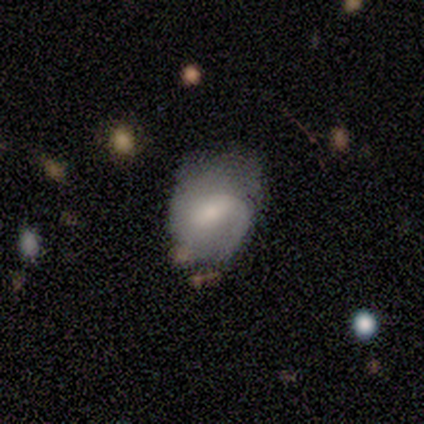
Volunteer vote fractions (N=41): Q: Smooth or featured?
A: featured or disk (61%); runner-up: smooth (29%)
Q: Edge-on disk?
A: no (100%)
Q: Bar?
A: weak (64%); runner-up: no (24%)
Q: Spiral arms?
A: yes (96%); runner-up: no (4%)
Q: Spiral winding?
A: medium (50%); runner-up: tight (33%)
Q: Spiral arm count?
A: 1 (54%); runner-up: 2 (25%)
Q: Bulge size?
A: moderate (40%); tied with: small (40%)
Q: Merging?
A: none (38%); tied with: minor disturbance (38%)